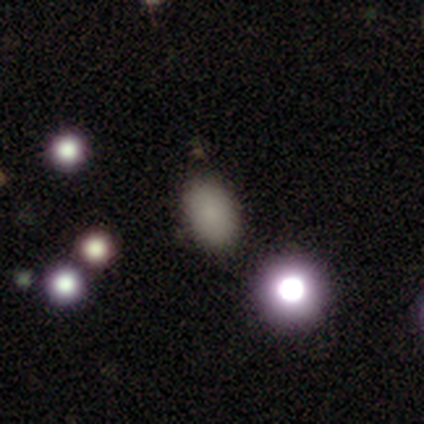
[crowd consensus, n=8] A smooth galaxy with no disk features (88%) that is in between round and cigar-shaped (71%). Merging: none (86%).